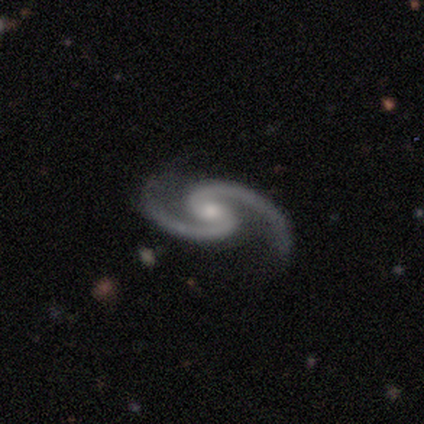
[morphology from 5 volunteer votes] featured or disk 100%, smooth 0%, star or artifact 0%. Down the decision tree: edge-on disk — no (100%); bar — strong (40%, tied with no); spiral arms — yes (100%); spiral arm count — 2 (100%); spiral winding — medium (60%); bulge size — small (60%); merging — none (100%).